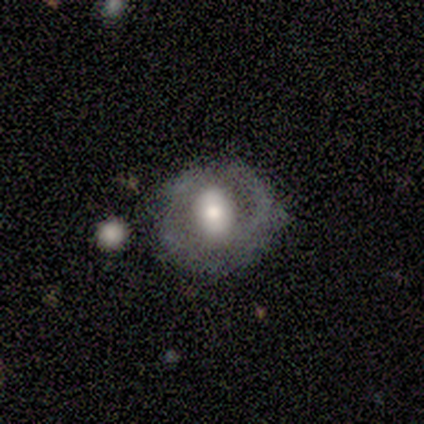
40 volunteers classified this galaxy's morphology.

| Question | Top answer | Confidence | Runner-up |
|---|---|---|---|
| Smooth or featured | featured or disk | 60% | smooth (32%) |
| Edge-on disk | no | 92% | yes (8%) |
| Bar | no | 55% | strong (23%) |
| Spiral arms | no | 68% | yes (32%) |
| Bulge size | moderate | 73% | large (18%) |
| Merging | none | 59% | minor disturbance (22%) |